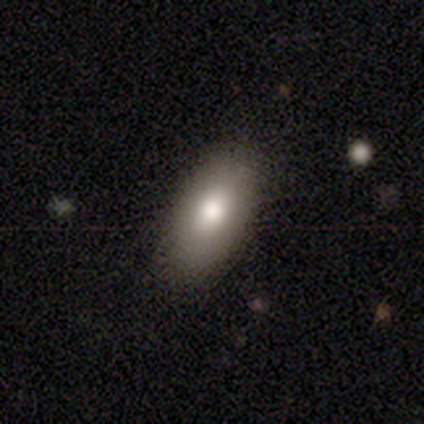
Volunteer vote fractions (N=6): This is clearly a smooth galaxy (100%). How rounded: clearly in between (83%). Merging: clearly none (83%).